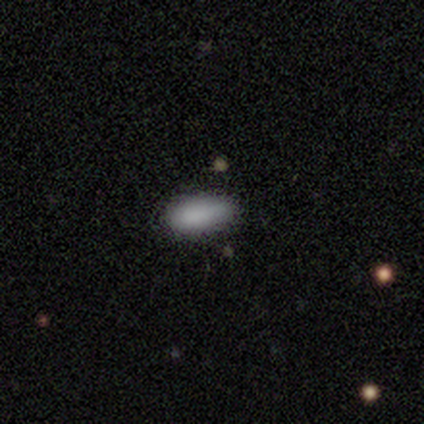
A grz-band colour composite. It shows a smooth galaxy with no disk features (80%) that is in between round and cigar-shaped (75%). Merging: none (60%).